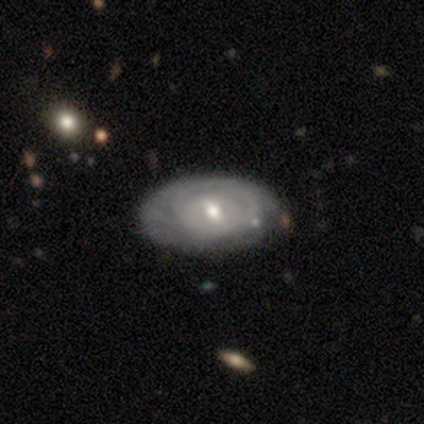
A featured or disk galaxy (75%) with a weak bar (53%), tight (86%) spiral arms (70%) and a moderate central bulge (60%).

Vote fractions:
- Smooth or featured? featured or disk: 75% / smooth: 22% / star or artifact: 2%
- Edge-on disk? no: 100% / yes: 0%
- Bar? weak: 53% / no: 37% / strong: 10%
- Spiral arms? yes: 70% / no: 30%
- Spiral winding? tight: 86% / medium: 10% / loose: 5%
- Spiral arm count? can't tell: 76% / 2: 10% / 1: 5% / 3: 5% / more than 4: 5% / 4: 0%
- Bulge size? moderate: 60% / small: 33% / large: 7% / dominant: 0% / none: 0%
- Merging? none: 85% / minor disturbance: 8% / merger: 5% / major disturbance: 3%